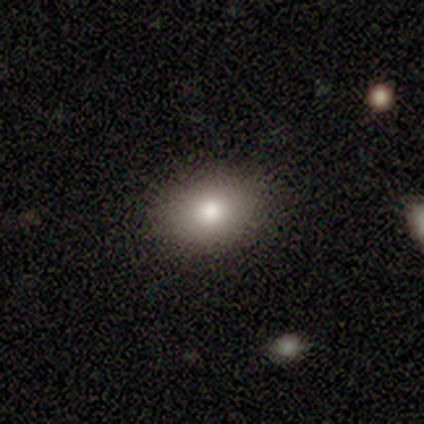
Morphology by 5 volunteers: Q: Smooth or featured?
A: smooth (80%); runner-up: star or artifact (20%)
Q: How rounded?
A: in between (75%); runner-up: round (25%)
Q: Merging?
A: none (100%)